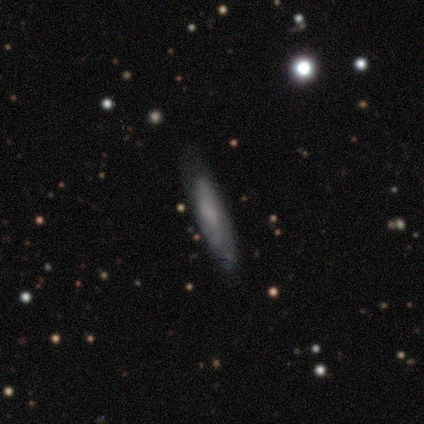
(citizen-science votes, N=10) This is clearly a smooth galaxy (90%). How rounded: likely cigar-shaped (67%). Merging: clearly none (80%).